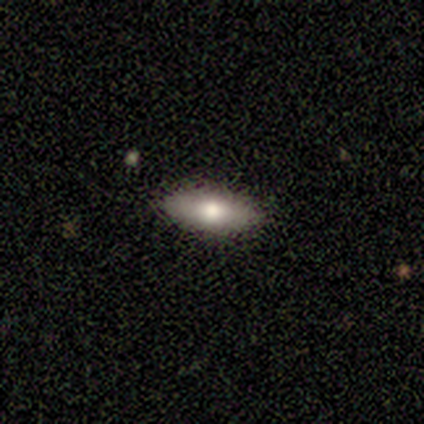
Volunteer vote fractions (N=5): smooth 60%, featured or disk 40%, star or artifact 0%. Down the decision tree: how rounded — cigar-shaped (67%); merging — none (100%).